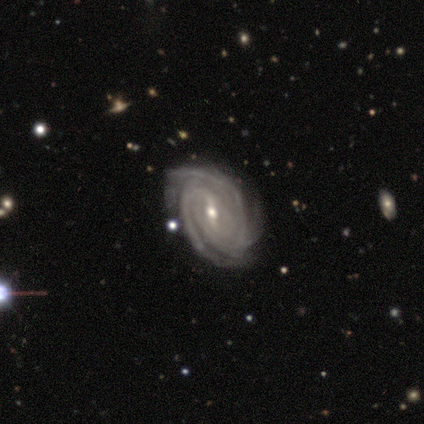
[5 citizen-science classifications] Smooth or featured: featured or disk — 80% (smooth — 20%)
Edge-on disk: no — 100%
Bar: strong — 75% (weak — 25%)
Spiral arms: yes — 100%
Spiral winding: tight — 50% (medium — 25%)
Spiral arm count: 3 — 50% (tied with can't tell — 50%)
Bulge size: small — 50% (large — 25%)
Merging: none — 80% (minor disturbance — 20%)